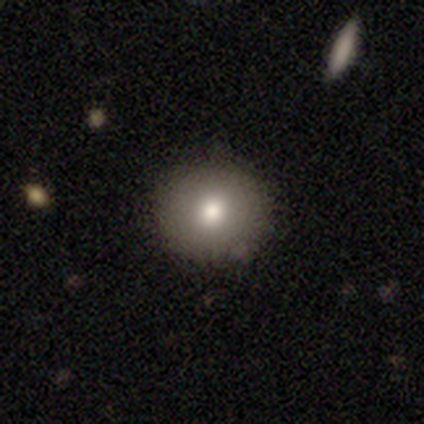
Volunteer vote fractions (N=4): Q: Smooth or featured?
A: smooth (100%)
Q: How rounded?
A: round (100%)
Q: Merging?
A: none (50%); tied with: minor disturbance (50%)